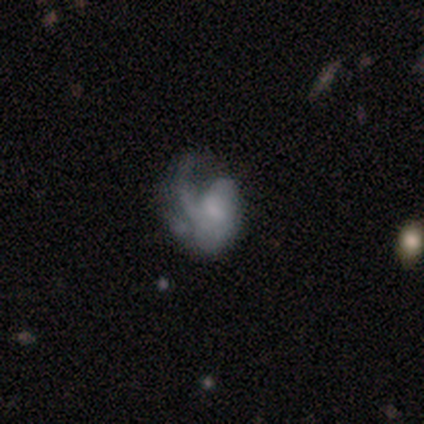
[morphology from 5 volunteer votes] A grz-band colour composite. It shows a featured or disk galaxy (60%) with a weak bar (67%), 1 (33%, tied with 2 and can't tell) loose (67%) spiral arms (100%) and a moderate central bulge (67%). Merging: major disturbance (75%).